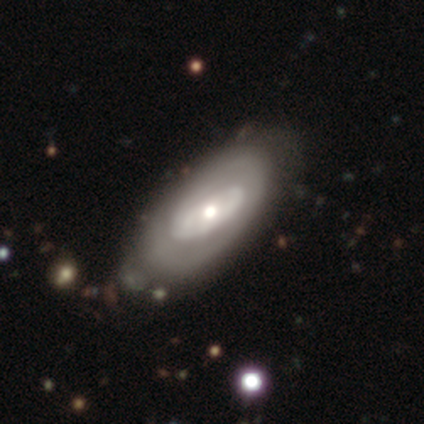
Q: Smooth or featured?
A: featured or disk (80%); runner-up: smooth (20%)
Q: Edge-on disk?
A: no (100%)
Q: Bar?
A: no (75%); runner-up: weak (25%)
Q: Spiral arms?
A: yes (75%); runner-up: no (25%)
Q: Spiral winding?
A: tight (100%)
Q: Spiral arm count?
A: can't tell (67%); runner-up: 2 (33%)
Q: Bulge size?
A: moderate (75%); runner-up: small (25%)
Q: Merging?
A: none (80%); runner-up: minor disturbance (20%)